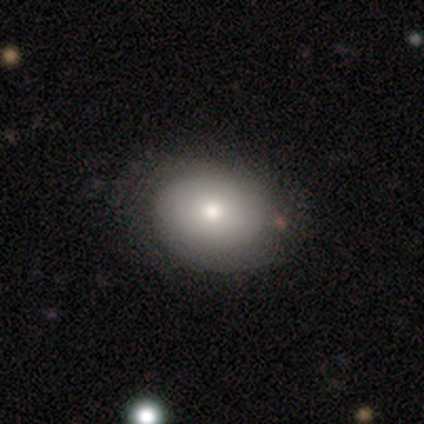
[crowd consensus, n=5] Morphology: type=smooth (100%); roundness=in between (60%); merging=none (80%).